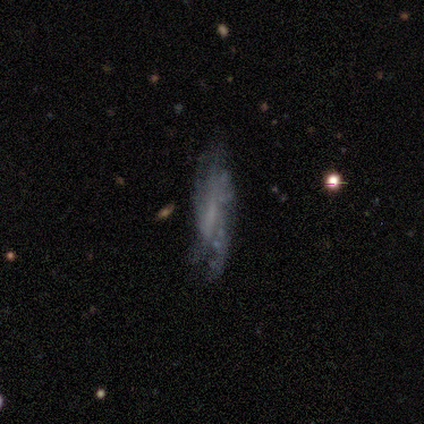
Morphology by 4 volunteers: Smooth or featured? smooth (50%, tied with featured or disk)
How rounded? in between (50%, tied with cigar-shaped)
Merging? none (50%, tied with minor disturbance)